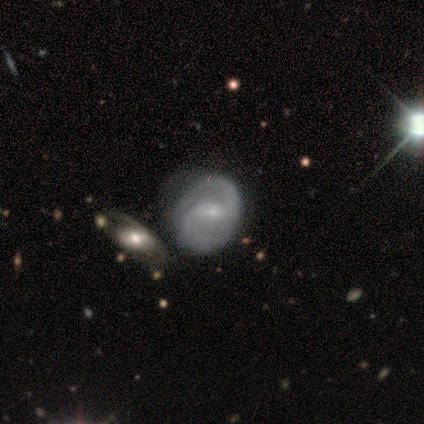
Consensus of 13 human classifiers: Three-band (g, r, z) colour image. It shows a featured or disk galaxy (92%) with a weak bar (75%), 2 (92%) medium (42%) spiral arms (100%) and a small central bulge (67%). Merging: minor disturbance (46%).